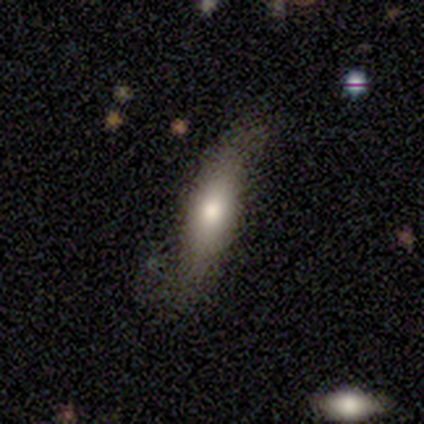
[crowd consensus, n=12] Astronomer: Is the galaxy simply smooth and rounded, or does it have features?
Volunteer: featured or disk — 50% (runner-up: smooth, 42%).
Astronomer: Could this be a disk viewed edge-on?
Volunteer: yes — 50%, tied with no at 50%.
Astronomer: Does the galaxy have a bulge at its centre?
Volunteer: rounded — 67%.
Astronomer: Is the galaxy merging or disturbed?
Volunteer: none — 73%.